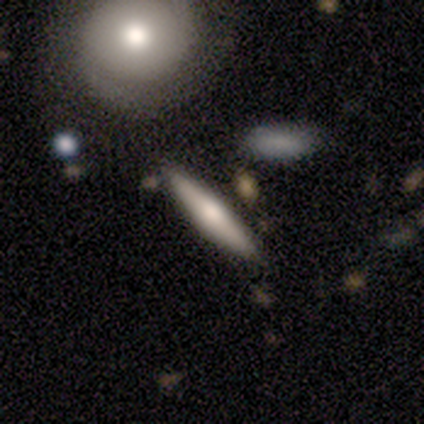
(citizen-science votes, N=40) This is possibly a smooth galaxy (57%). How rounded: clearly cigar-shaped (96%). Merging: clearly none (84%).